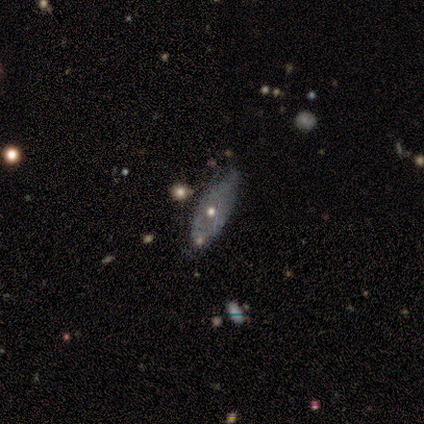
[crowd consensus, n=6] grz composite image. It shows a featured or disk galaxy (67%) with no bar (100%), no spiral arms (100%) and a moderate central bulge (67%). Merging: none (60%).